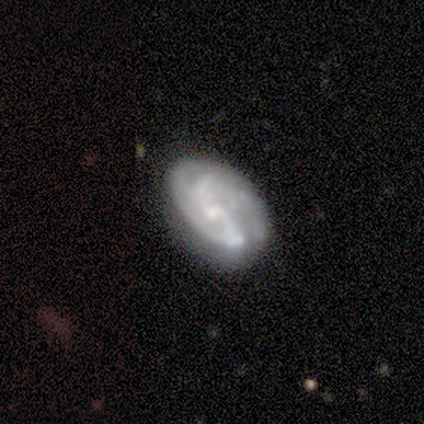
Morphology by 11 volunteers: Smooth or featured? 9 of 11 (82%) said featured or disk. Edge-on disk? 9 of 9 (100%) said no. Bar? 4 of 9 (44%) said weak. Spiral arms? 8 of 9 (89%) said yes. Spiral winding? 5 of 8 (62%) said medium. Spiral arm count? 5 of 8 (62%) said 2. Bulge size? 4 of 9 (44%) said small. Merging? 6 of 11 (55%) said none.